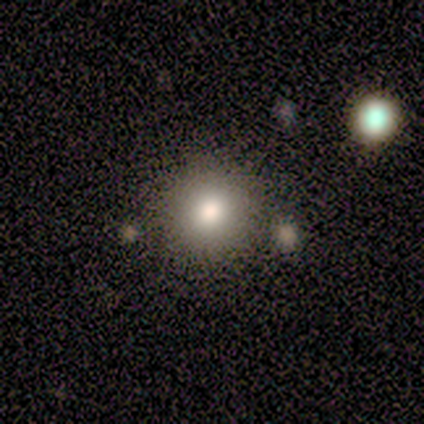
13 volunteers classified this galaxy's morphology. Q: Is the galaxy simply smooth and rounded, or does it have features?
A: smooth — 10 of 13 (77%).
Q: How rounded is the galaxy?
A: round — 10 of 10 (100%).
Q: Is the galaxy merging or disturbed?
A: none — 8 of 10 (80%).